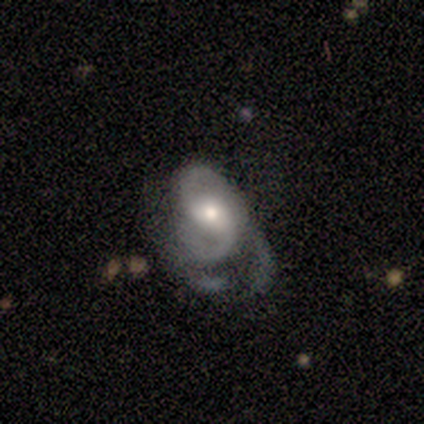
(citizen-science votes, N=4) Overall: featured or disk (75%). Edge-on disk: no (100%). Bar: weak (67%; strong 33%). Spiral arms: yes (100%). Spiral arm count: 2 (67%; can't tell 33%). Spiral winding: medium (100%). Bulge size: moderate (67%; small 33%). Merging: minor disturbance (50%, tied with major disturbance).